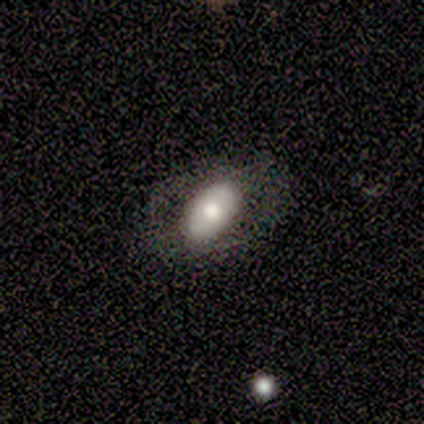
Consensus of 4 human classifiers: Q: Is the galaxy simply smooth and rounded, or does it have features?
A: smooth — 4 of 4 (100%).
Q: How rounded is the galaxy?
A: in between — 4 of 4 (100%).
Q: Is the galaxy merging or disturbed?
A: none — 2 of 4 (50%).